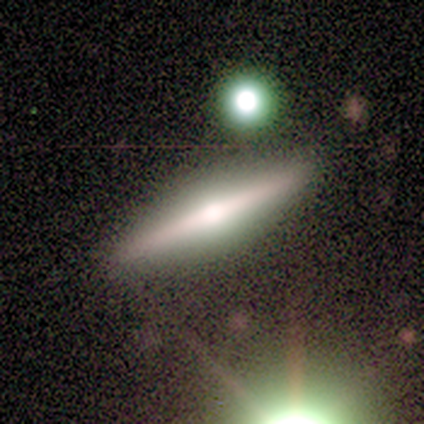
Q: Smooth or featured?
A: featured or disk (75%); runner-up: smooth (25%)
Q: Edge-on disk?
A: yes (100%)
Q: Edge-on bulge?
A: rounded (100%)
Q: Merging?
A: none (100%)